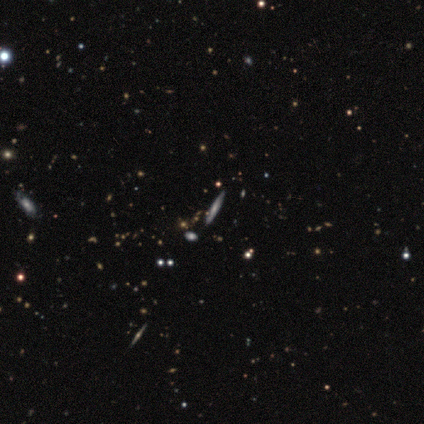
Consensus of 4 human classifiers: A featured or disk galaxy (100%) viewed edge-on (75%) with a rounded central bulge (100%). Merging: none (75%).